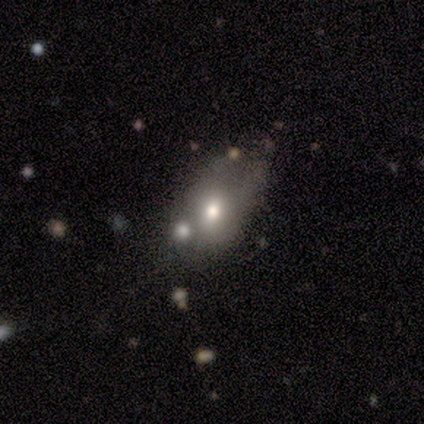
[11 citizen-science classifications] A smooth galaxy with no disk features (82%) that is in between round and cigar-shaped (89%). Merging: none (27%, tied with major disturbance and merger).